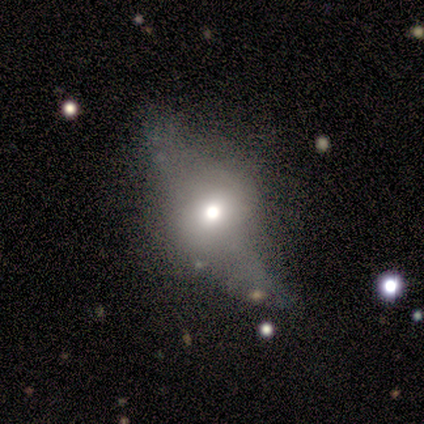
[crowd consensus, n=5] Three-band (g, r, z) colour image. It shows a featured or disk galaxy (80%) viewed edge-on (50%, tied with no) with a rounded central bulge (100%). Merging: major disturbance (60%).